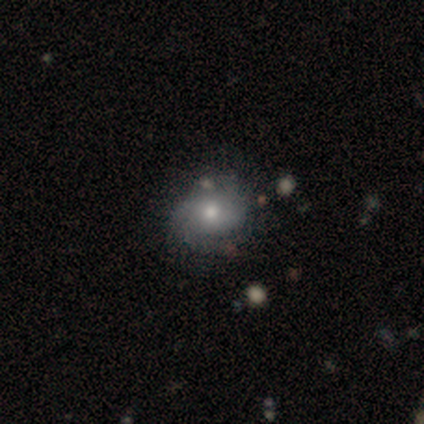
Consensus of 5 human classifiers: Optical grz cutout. It shows a smooth galaxy with no disk features (60%) that is round (67%). Merging: minor disturbance (67%).